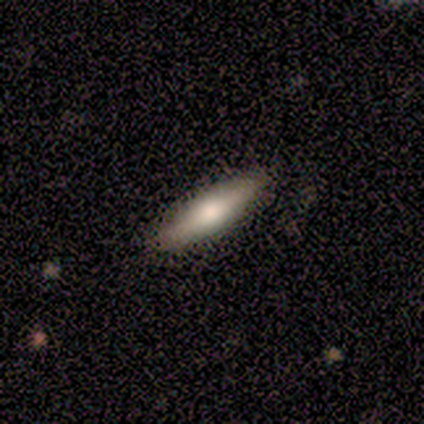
This appears to be a featured or disk galaxy (60%) viewed edge-on (100%) with a rounded central bulge (100%). Merging: none (100%).